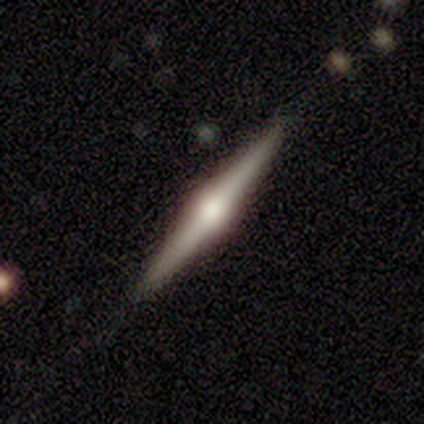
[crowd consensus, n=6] Smooth or featured? 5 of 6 (83%) said featured or disk. Edge-on disk? 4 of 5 (80%) said yes. Edge-on bulge? 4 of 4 (100%) said rounded. Merging? 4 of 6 (67%) said none.